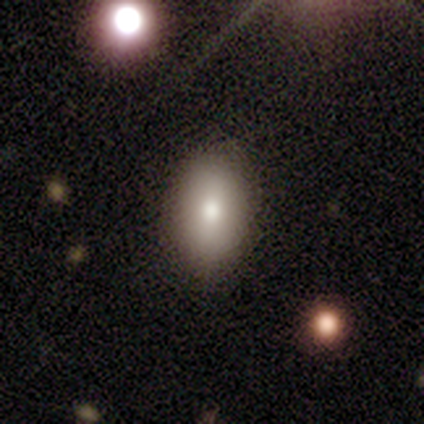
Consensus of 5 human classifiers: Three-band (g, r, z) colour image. It shows a smooth galaxy with no disk features (40%, tied with featured or disk) that is in between round and cigar-shaped (100%). Merging: none (75%).